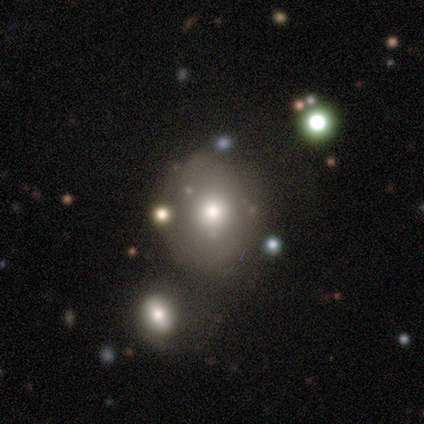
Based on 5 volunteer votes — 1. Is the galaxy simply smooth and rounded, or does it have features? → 60% smooth, 40% featured or disk, 0% star or artifact.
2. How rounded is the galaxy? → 100% round, 0% in between, 0% cigar-shaped.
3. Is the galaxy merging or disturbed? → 80% none, 20% merger, 0% minor disturbance, 0% major disturbance.